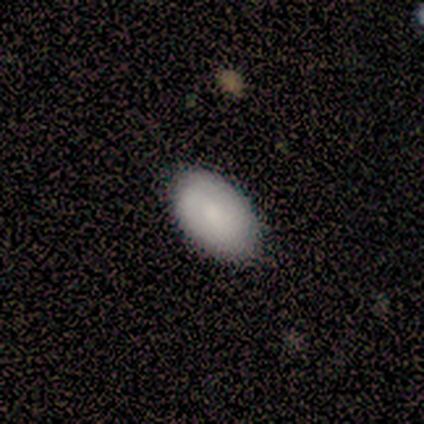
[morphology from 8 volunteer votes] Volunteers were most divided on "smooth or featured": smooth: 75%, featured or disk: 12%, star or artifact: 12%. More confident: how rounded — in between (100%); merging — none (100%).